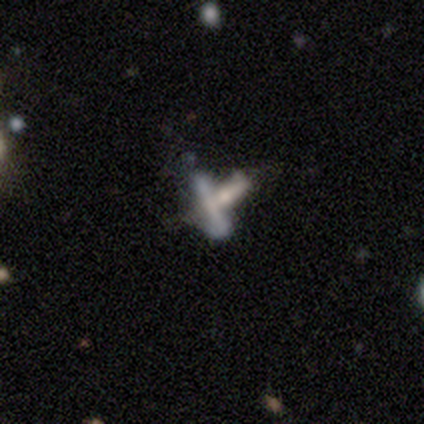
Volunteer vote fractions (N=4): This appears to be a smooth galaxy with no disk features (50%, tied with star or artifact) that is cigar-shaped (100%). Merging: none (50%, tied with merger).